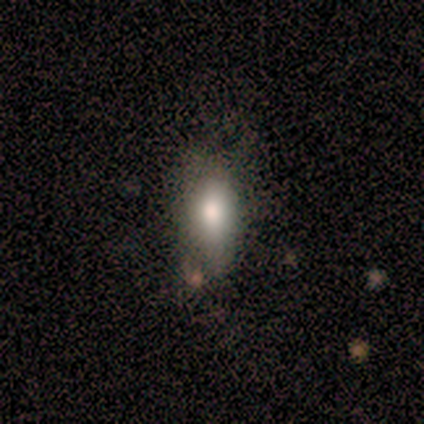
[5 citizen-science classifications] Smooth or featured? 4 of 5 (80%) said smooth. How rounded? 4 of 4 (100%) said in between. Merging? 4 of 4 (100%) said minor disturbance.